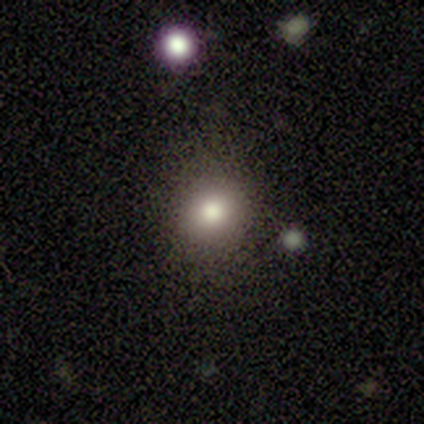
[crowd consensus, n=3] Volunteers were most divided on "how rounded" (2-way tie): round: 50%, in between: 50%, cigar-shaped: 0%. More confident: merging — none (100%); smooth or featured — smooth (67%).